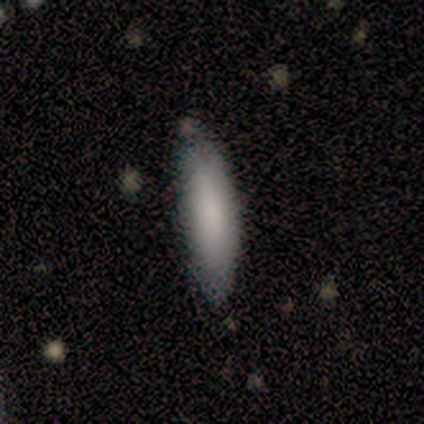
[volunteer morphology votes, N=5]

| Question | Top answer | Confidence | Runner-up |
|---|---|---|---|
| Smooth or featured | smooth | 80% | featured or disk (20%) |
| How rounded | in between | 50% | tied: cigar-shaped (50%) |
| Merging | none | 80% | minor disturbance (20%) |